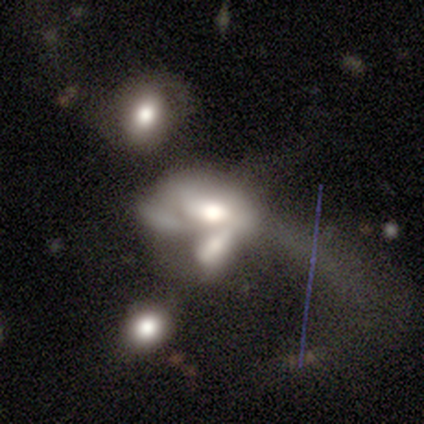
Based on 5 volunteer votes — Q: Smooth or featured?
A: featured or disk (60%); runner-up: smooth (40%)
Q: Edge-on disk?
A: no (100%)
Q: Bar?
A: no (100%)
Q: Spiral arms?
A: no (67%); runner-up: yes (33%)
Q: Bulge size?
A: large (33%); tied with: moderate (33%); small (33%)
Q: Merging?
A: merger (80%); runner-up: major disturbance (20%)